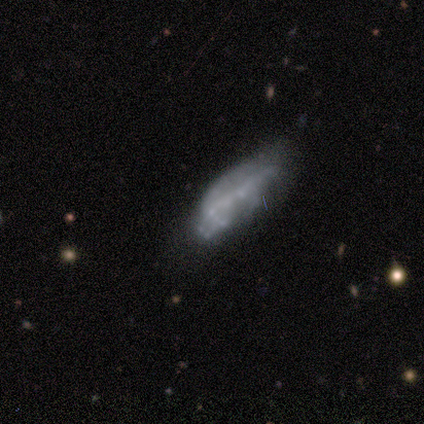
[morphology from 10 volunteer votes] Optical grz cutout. It shows a featured or disk galaxy (50%) with no bar (100%), no spiral arms (100%) and no central bulge (50%). Merging: minor disturbance (44%).